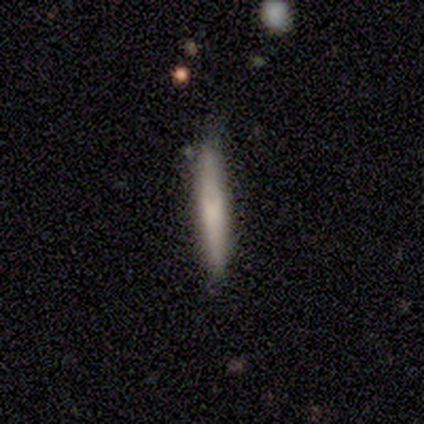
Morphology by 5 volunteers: This appears to be a smooth galaxy with no disk features (80%) that is cigar-shaped (100%). Merging: none (75%).